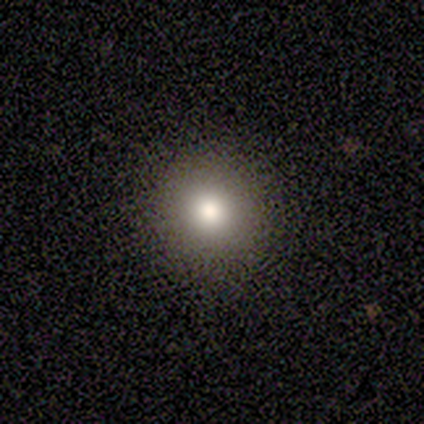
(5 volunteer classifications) smooth_or_featured: smooth (p=0.80) [alt: star or artifact p=0.20]
how_rounded: round (p=0.75) [alt: in between p=0.25]
merging: none (p=0.75) [alt: major disturbance p=0.25]